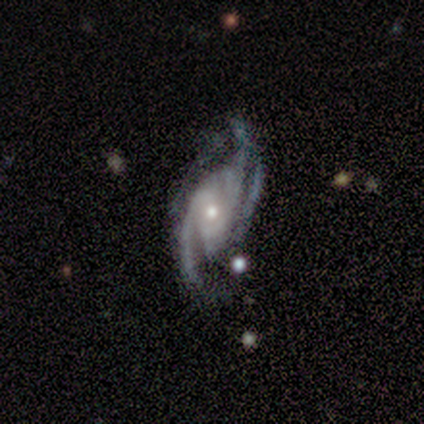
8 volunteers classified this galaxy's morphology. type=featured or disk (100%); edge-on=no (100%); bar=no (62%); spiral arms=yes (100%); winding=medium (62%); arm count=3 (62%); bulge=small (50%); merging=none (75%).